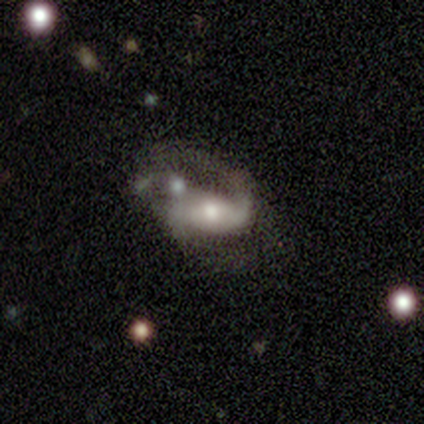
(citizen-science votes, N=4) smooth_or_featured: featured or disk (p=1.00)
disk_edge_on: no (p=1.00)
bar: weak (p=0.50) [tied with: no p=0.50]
has_spiral_arms: yes (p=1.00)
spiral_winding: medium (p=0.50) [tied with: loose p=0.50]
spiral_arm_count: 2 (p=0.75) [alt: 1 p=0.25]
bulge_size: moderate (p=1.00)
merging: merger (p=0.50) [alt: none p=0.25]